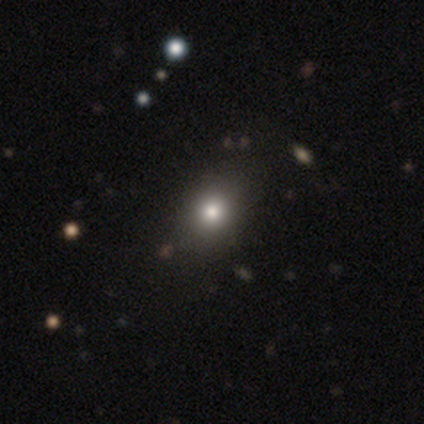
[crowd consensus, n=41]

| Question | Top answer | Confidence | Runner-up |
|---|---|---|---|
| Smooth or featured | smooth | 71% | featured or disk (17%) |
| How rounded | round | 62% | in between (34%) |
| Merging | none | 81% | minor disturbance (14%) |